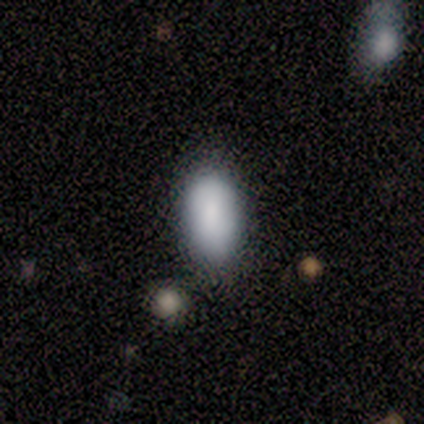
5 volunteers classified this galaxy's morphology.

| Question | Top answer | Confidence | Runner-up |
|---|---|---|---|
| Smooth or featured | smooth | 80% | featured or disk (20%) |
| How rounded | in between | 100% | — |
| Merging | none | 60% | minor disturbance (20%) |